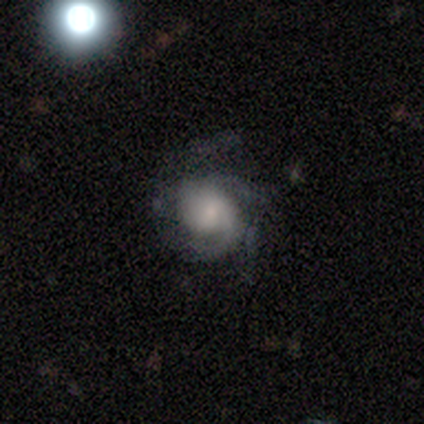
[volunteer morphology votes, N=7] This is likely a featured or disk galaxy (71%). It is clearly not viewed edge-on (100%). Bar: likely no (60%). Spiral arm pattern: clearly yes (100%). Spiral arm count: marginally 1 (40%, tied with 3). Spiral winding: clearly tight (80%). Central bulge: clearly small (80%). Merging: likely none (71%).